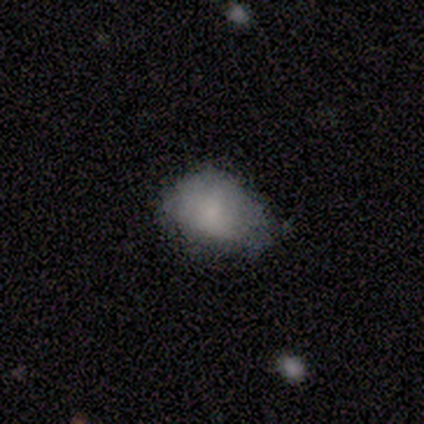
Morphology: type=smooth (80%); roundness=in between (100%); merging=none (60%).